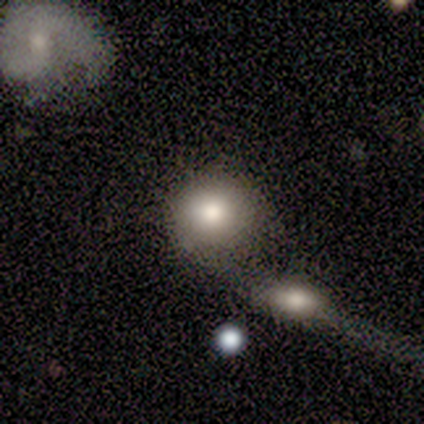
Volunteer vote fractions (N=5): A smooth galaxy with no disk features (80%) that is round (75%).

Vote fractions:
- Smooth or featured? smooth: 80% / featured or disk: 20% / star or artifact: 0%
- How rounded? round: 75% / in between: 25% / cigar-shaped: 0%
- Merging? merger: 60% / none: 40% / minor disturbance: 0% / major disturbance: 0%